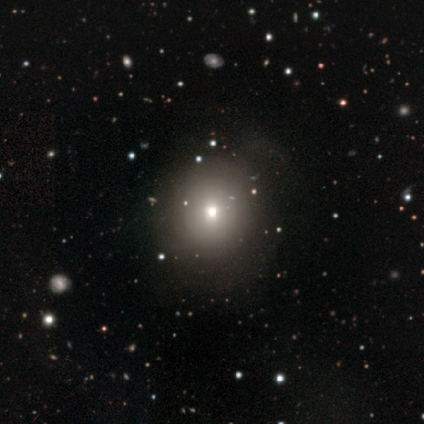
Smooth or featured? smooth (100%)
How rounded? round (80%)
Merging? none (80%)